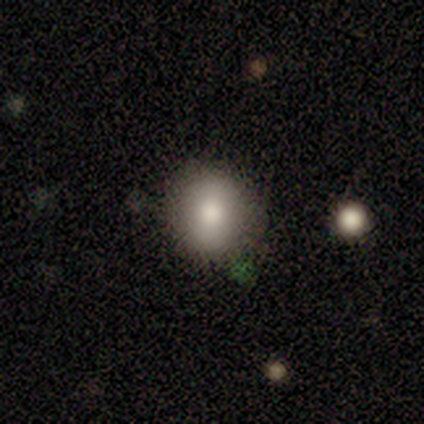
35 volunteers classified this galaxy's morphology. Smooth or featured? 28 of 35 (80%) said smooth. How rounded? 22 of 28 (79%) said round. Merging? 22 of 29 (76%) said none.